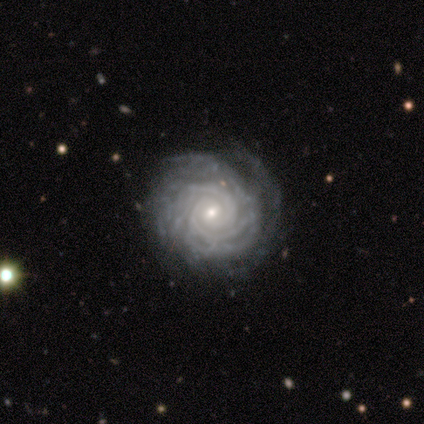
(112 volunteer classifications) Q: Smooth or featured?
A: featured or disk (93%); runner-up: smooth (4%)
Q: Edge-on disk?
A: no (98%); runner-up: yes (2%)
Q: Bar?
A: no (64%); runner-up: weak (31%)
Q: Spiral arms?
A: yes (99%); runner-up: no (1%)
Q: Spiral winding?
A: tight (93%); runner-up: medium (6%)
Q: Spiral arm count?
A: can't tell (28%); runner-up: 2 (26%)
Q: Bulge size?
A: small (67%); runner-up: moderate (31%)
Q: Merging?
A: none (59%); runner-up: minor disturbance (11%)